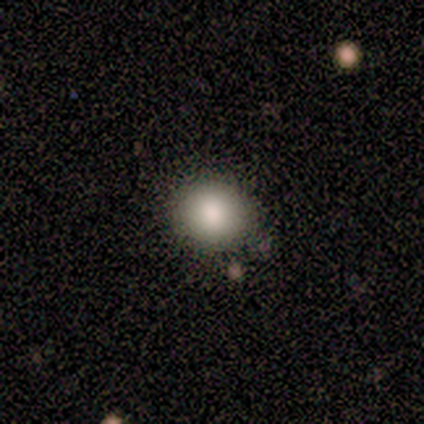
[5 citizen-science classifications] This is clearly a smooth galaxy (80%). How rounded: clearly round (100%). Merging: possibly none (50%).